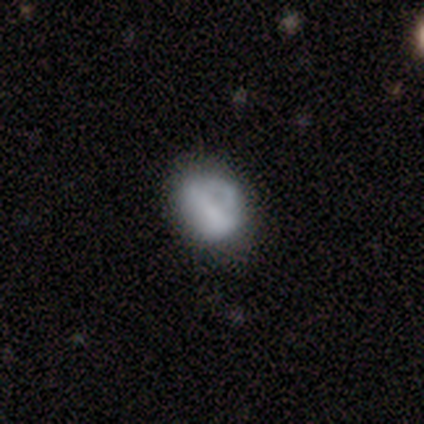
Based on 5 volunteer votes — Smooth or featured?
  - smooth: 60% *
  - featured or disk: 40%
  - star or artifact: 0%
How rounded?
  - in between: 67% *
  - round: 33%
  - cigar-shaped: 0%
Merging?
  - none: 60% *
  - major disturbance: 40%
  - minor disturbance: 0%
  - merger: 0%